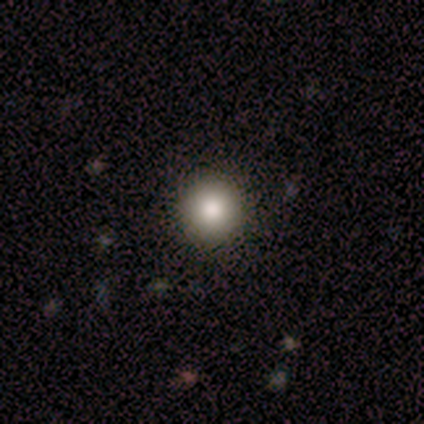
Morphology: type=smooth (100%); roundness=round (100%); merging=none (100%).